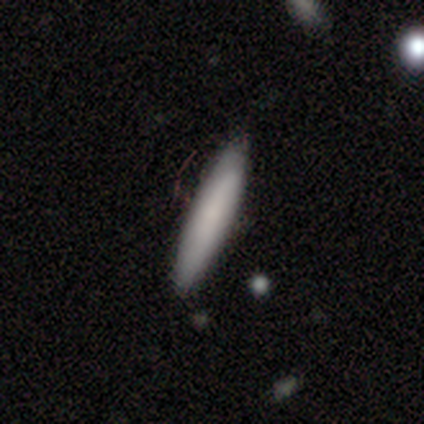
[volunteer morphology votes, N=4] Volunteers were most divided on "bar" (2-way tie): weak: 50%, no: 50%, strong: 0%; "spiral arms" (2-way tie): yes: 50%, no: 50%; "bulge size" (2-way tie): small: 50%, none: 50%, dominant: 0%, large: 0%, moderate: 0%. More confident: spiral winding — medium (100%); spiral arm count — can't tell (100%); smooth or featured — featured or disk (75%); merging — none (75%); edge-on disk — no (67%).